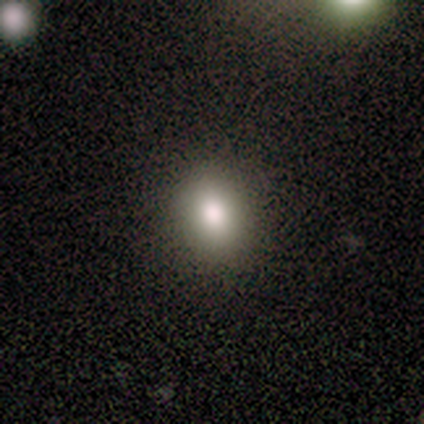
Q: Smooth or featured?
A: smooth (60%); runner-up: featured or disk (20%)
Q: How rounded?
A: in between (67%); runner-up: round (33%)
Q: Merging?
A: none (75%); runner-up: minor disturbance (25%)